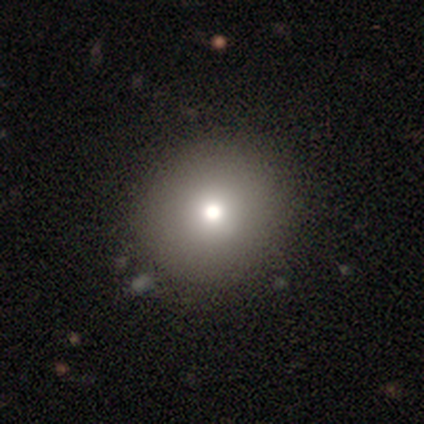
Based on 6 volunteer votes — smooth_or_featured: smooth (p=0.67) [alt: featured or disk p=0.17]
how_rounded: round (p=0.75) [alt: in between p=0.25]
merging: none (p=1.00)